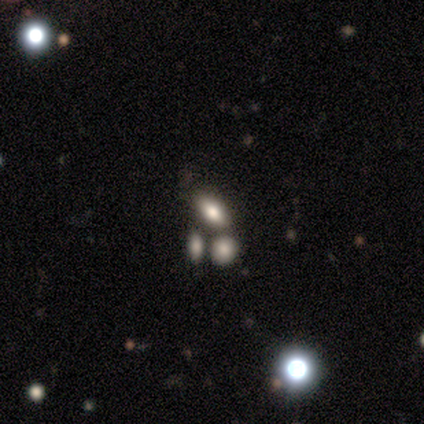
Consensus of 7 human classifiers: Smooth or featured?
  - smooth: 71% *
  - featured or disk: 29%
  - star or artifact: 0%
How rounded?
  - in between: 100% *
  - round: 0%
  - cigar-shaped: 0%
Merging?
  - none: 57% *
  - merger: 43%
  - minor disturbance: 0%
  - major disturbance: 0%